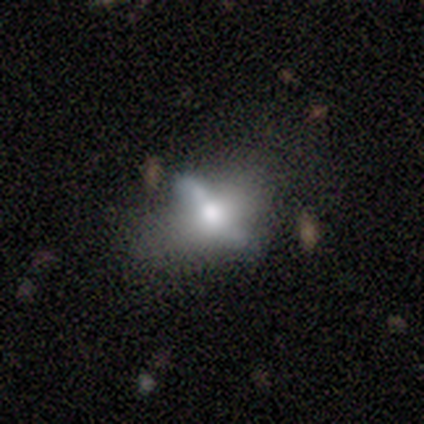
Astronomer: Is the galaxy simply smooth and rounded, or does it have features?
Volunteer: smooth — 50%, tied with featured or disk at 50%.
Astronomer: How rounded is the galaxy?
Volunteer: in between — 100%.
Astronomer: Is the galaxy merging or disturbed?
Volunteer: none — 33%, tied with major disturbance at 33%.